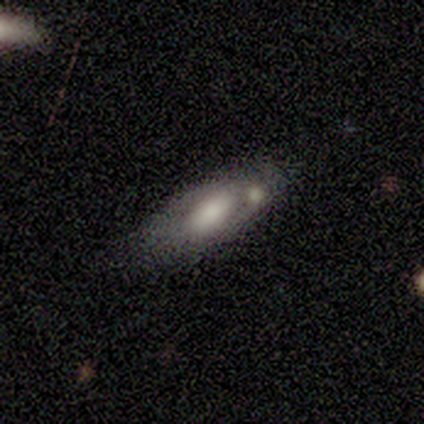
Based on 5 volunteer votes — smooth_or_featured: smooth (p=1.00)
how_rounded: in between (p=0.60) [alt: cigar-shaped p=0.40]
merging: none (p=0.60) [alt: merger p=0.40]